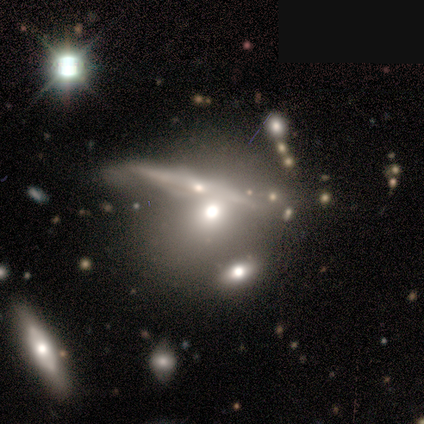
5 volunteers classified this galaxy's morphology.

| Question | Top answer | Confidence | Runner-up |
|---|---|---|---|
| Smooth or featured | smooth | 80% | featured or disk (20%) |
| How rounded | round | 50% | tied: in between (50%) |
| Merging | none | 40% | tied: merger (40%) |